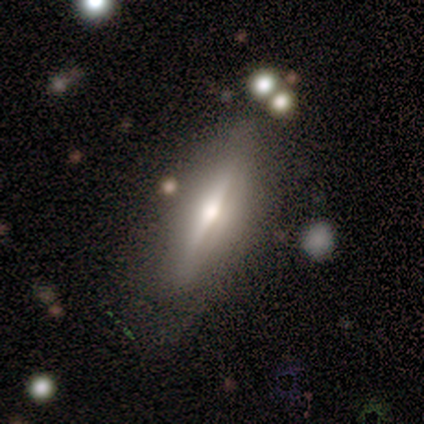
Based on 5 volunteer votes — featured or disk 100%, smooth 0%, star or artifact 0%. Down the decision tree: edge-on disk — yes (80%); edge-on bulge — rounded (100%); merging — none (100%).